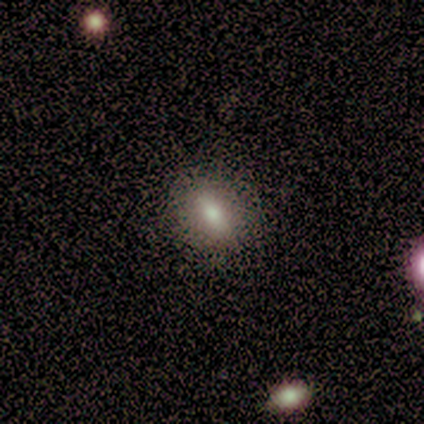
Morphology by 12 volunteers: This appears to be a smooth galaxy with no disk features (42%, tied with star or artifact) that is round (60%). Merging: none (86%).